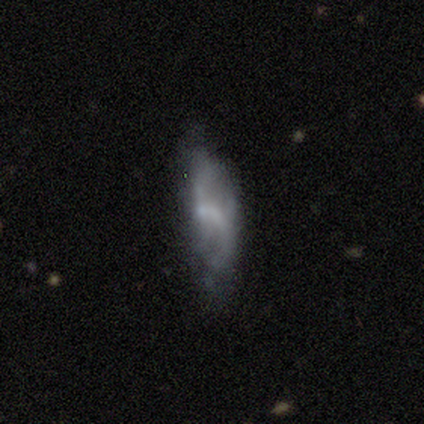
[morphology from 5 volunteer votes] Q: Smooth or featured?
A: smooth (80%); runner-up: featured or disk (20%)
Q: How rounded?
A: in between (100%)
Q: Merging?
A: minor disturbance (40%); runner-up: none (20%)